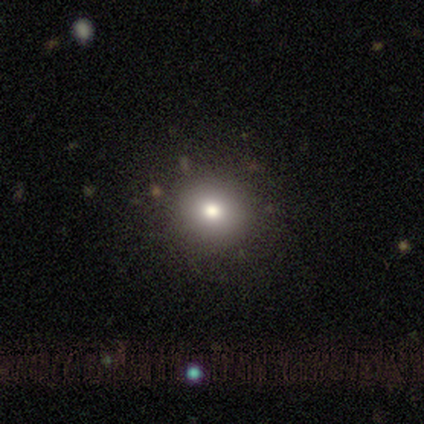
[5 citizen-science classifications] Morphology: type=smooth (60%); roundness=round (67%); merging=none (100%).